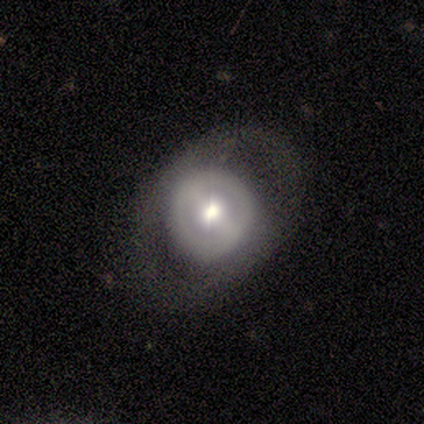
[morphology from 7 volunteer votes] smooth-or-featured: smooth: 57% | featured or disk: 43% | star or artifact: 0%
  how-rounded: round: 100% | in between: 0% | cigar-shaped: 0%
  merging: none: 57% | minor disturbance: 29% | major disturbance: 14% | merger: 0%